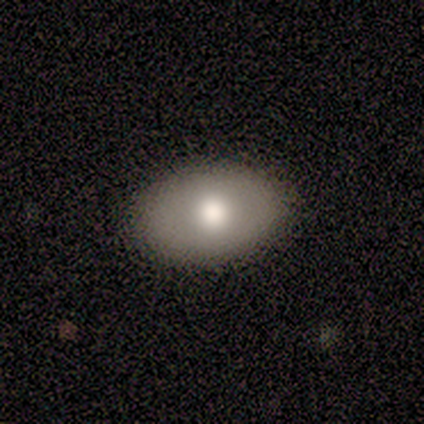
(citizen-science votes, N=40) Overall: smooth (85%). How rounded: in between (85%). Merging: none (63%).